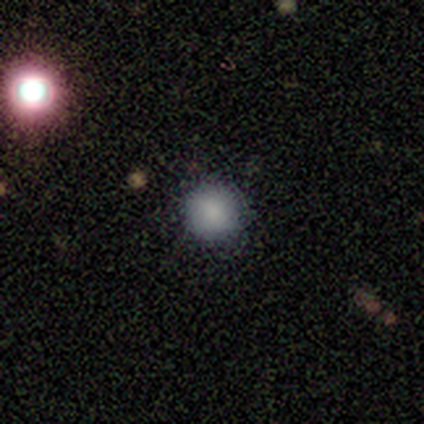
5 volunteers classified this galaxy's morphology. smooth-or-featured: smooth: 100% | featured or disk: 0% | star or artifact: 0%
  how-rounded: round: 80% | in between: 20% | cigar-shaped: 0%
  merging: none: 80% | minor disturbance: 20% | major disturbance: 0% | merger: 0%